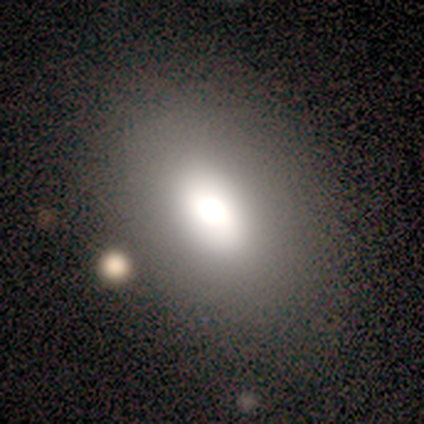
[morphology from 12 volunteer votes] smooth 92%, featured or disk 8%, star or artifact 0%. Down the decision tree: how rounded — in between (82%); merging — none (100%).